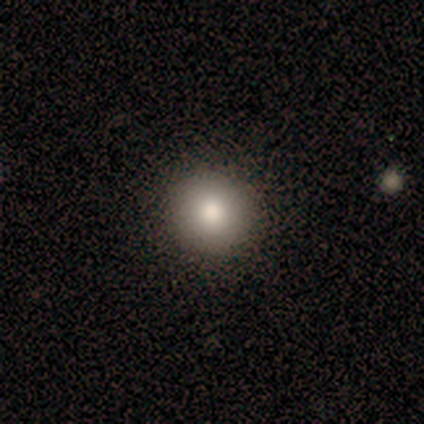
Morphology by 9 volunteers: This appears to be a smooth galaxy with no disk features (78%) that is round (100%). Merging: none (88%).